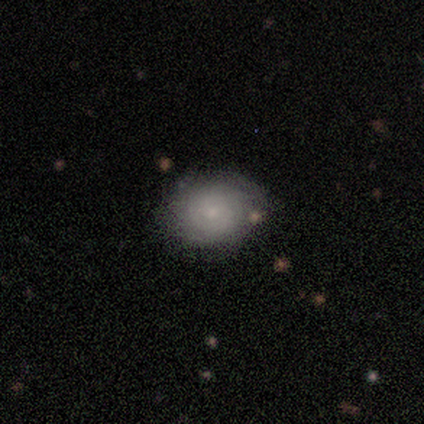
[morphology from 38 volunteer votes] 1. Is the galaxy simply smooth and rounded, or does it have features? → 58% smooth, 34% featured or disk, 8% star or artifact.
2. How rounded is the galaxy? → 86% round, 14% in between, 0% cigar-shaped.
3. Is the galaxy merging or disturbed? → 80% none, 9% minor disturbance, 9% major disturbance, 3% merger.